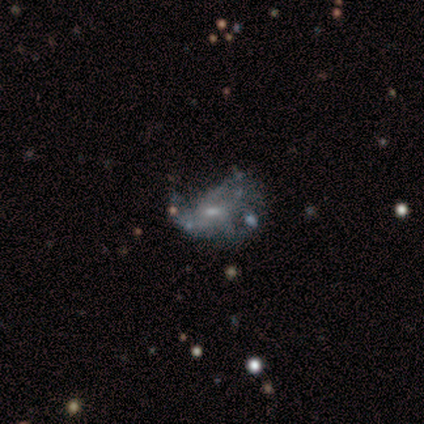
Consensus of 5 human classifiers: A featured or disk galaxy (60%) with no bar (100%), 1 (50%, tied with can't tell) tight (50%, tied with medium) spiral arms (67%) and a small central bulge (67%). Merging: none (75%).